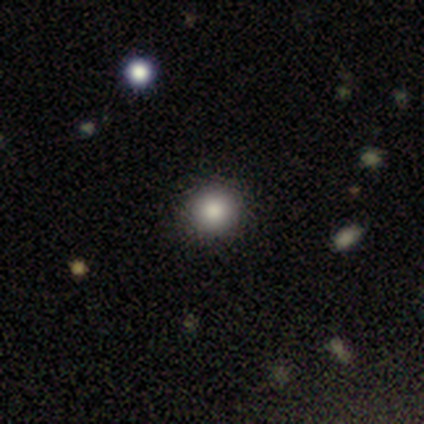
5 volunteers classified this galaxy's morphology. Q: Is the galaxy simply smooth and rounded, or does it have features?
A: smooth — 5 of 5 (100%).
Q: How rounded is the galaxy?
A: round — 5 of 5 (100%).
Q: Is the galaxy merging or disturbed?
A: none — 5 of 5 (100%).